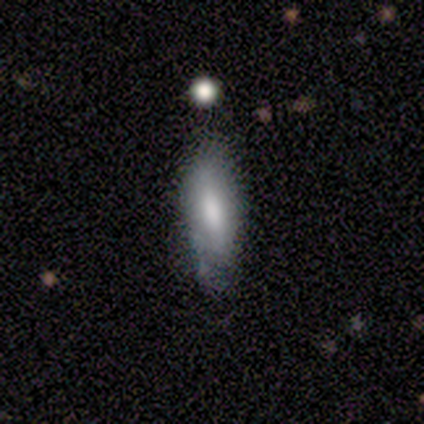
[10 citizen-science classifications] smooth 80%, featured or disk 20%, star or artifact 0%. Down the decision tree: how rounded — in between (88%); merging — none (50%).